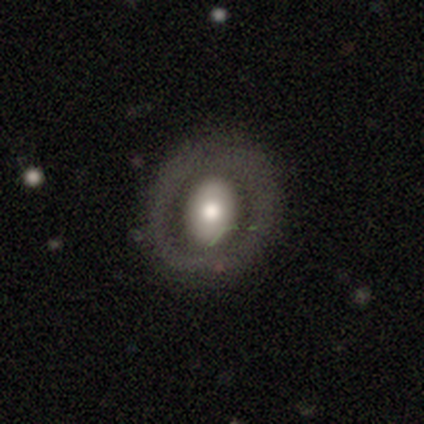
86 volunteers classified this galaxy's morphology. smooth 50%, featured or disk 44%, star or artifact 6%. Down the decision tree: how rounded — in between (53%); merging — none (80%).